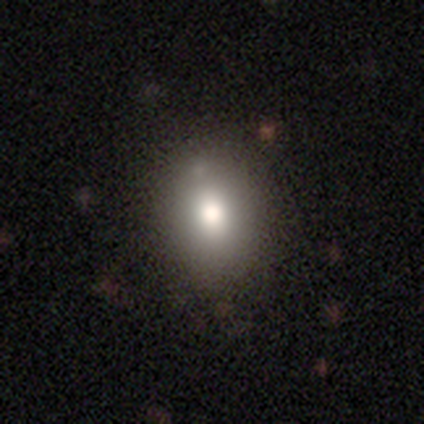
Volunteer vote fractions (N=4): Smooth or featured?
  - smooth: 75% *
  - featured or disk: 25%
  - star or artifact: 0%
How rounded?
  - in between: 67% *
  - round: 33%
  - cigar-shaped: 0%
Merging?
  - none: 75% *
  - merger: 25%
  - minor disturbance: 0%
  - major disturbance: 0%